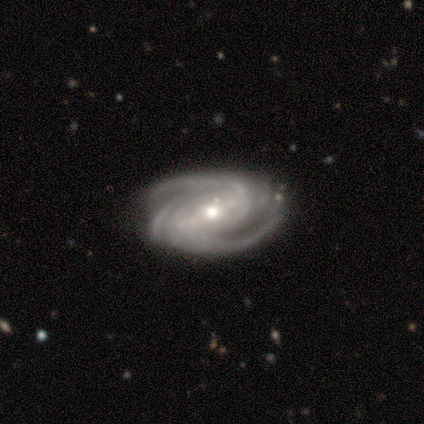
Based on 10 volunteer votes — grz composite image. It shows a featured or disk galaxy (100%) with a strong bar (40%), 3 (50%) tight (50%, tied with medium) spiral arms (100%) and a moderate central bulge (50%). Merging: none (70%).